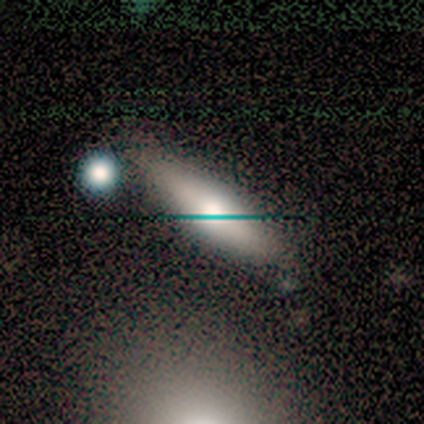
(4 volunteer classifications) A smooth galaxy with no disk features (75%) that is cigar-shaped (100%).

Vote fractions:
- Smooth or featured? smooth: 75% / featured or disk: 25% / star or artifact: 0%
- How rounded? cigar-shaped: 100% / round: 0% / in between: 0%
- Merging? none: 50% / major disturbance: 25% / merger: 25% / minor disturbance: 0%